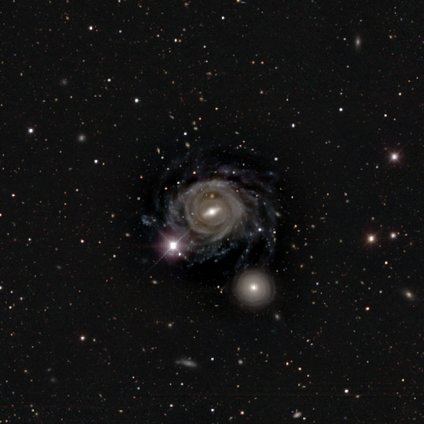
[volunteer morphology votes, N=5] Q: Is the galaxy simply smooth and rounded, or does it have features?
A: featured or disk — 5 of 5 (100%).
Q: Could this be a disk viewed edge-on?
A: no — 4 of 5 (80%).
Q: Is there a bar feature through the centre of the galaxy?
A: weak — 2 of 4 (50%).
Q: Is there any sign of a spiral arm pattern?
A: yes — 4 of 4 (100%).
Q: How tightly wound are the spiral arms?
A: tight — 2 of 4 (50%).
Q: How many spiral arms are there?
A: can't tell — 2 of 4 (50%).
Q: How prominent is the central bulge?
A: moderate — 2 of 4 (50%, tied with small).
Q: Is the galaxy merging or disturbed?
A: none — 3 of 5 (60%).